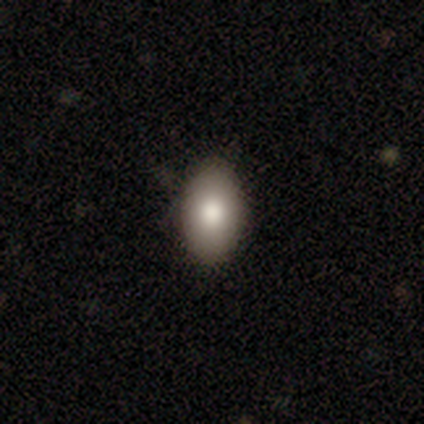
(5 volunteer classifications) Overall: smooth (100%). How rounded: in between (100%). Merging: none (100%).